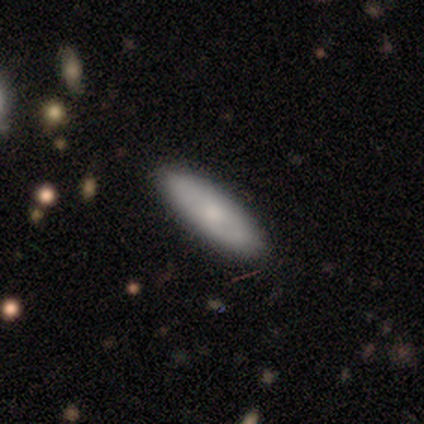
This appears to be a smooth galaxy with no disk features (100%) that is cigar-shaped (100%). Merging: none (100%).